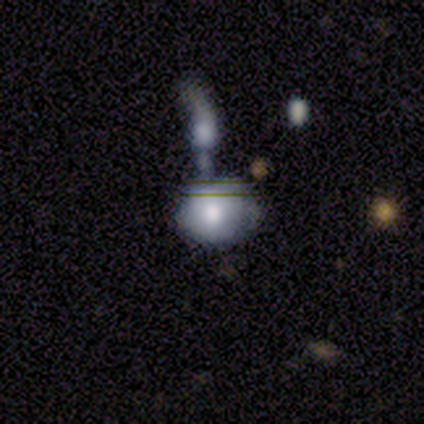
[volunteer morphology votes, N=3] A smooth galaxy with no disk features (67%) that is round (50%, tied with in between).

Vote fractions:
- Smooth or featured? smooth: 67% / featured or disk: 33% / star or artifact: 0%
- How rounded? round: 50% (tied) / in between: 50% (tied) / cigar-shaped: 0%
- Merging? major disturbance: 67% / merger: 33% / none: 0% / minor disturbance: 0%